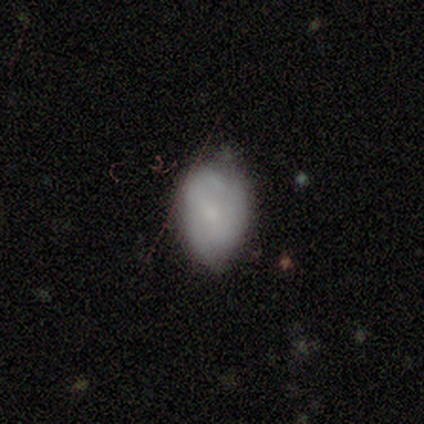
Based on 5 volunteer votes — A featured or disk galaxy (60%) with no bar (100%), 2 (67%) tight (67%) spiral arms (100%) and a small central bulge (67%).

Vote fractions:
- Smooth or featured? featured or disk: 60% / smooth: 40% / star or artifact: 0%
- Edge-on disk? no: 100% / yes: 0%
- Bar? no: 100% / strong: 0% / weak: 0%
- Spiral arms? yes: 100% / no: 0%
- Spiral winding? tight: 67% / medium: 33% / loose: 0%
- Spiral arm count? 2: 67% / 1: 33% / 3: 0% / 4: 0% / more than 4: 0% / can't tell: 0%
- Bulge size? small: 67% / moderate: 33% / dominant: 0% / large: 0% / none: 0%
- Merging? none: 80% / minor disturbance: 20% / major disturbance: 0% / merger: 0%